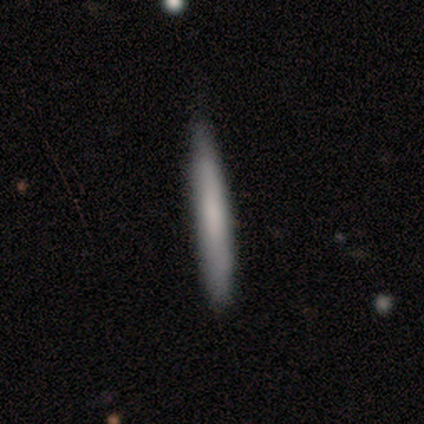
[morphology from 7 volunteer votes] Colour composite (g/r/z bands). It shows a smooth galaxy with no disk features (57%) that is cigar-shaped (100%). Merging: none (80%).